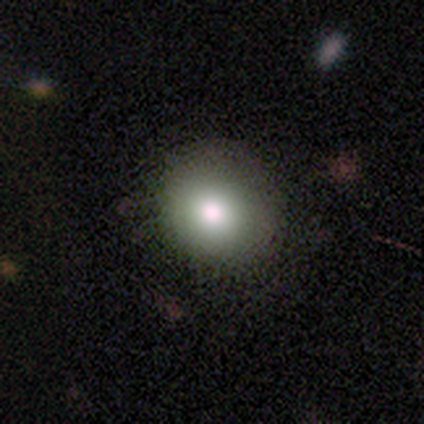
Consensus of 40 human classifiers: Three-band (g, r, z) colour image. It shows a smooth galaxy with no disk features (80%) that is round (78%). Merging: none (75%).